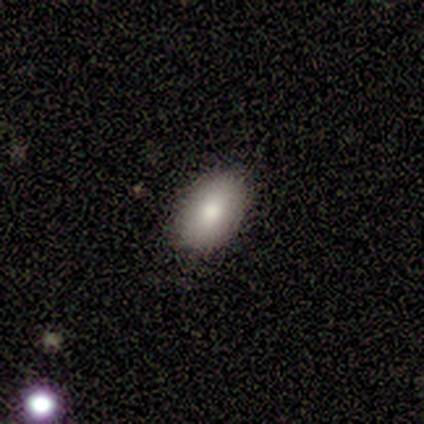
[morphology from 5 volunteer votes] Overall: smooth (80%). How rounded: in between (100%). Merging: none (80%).